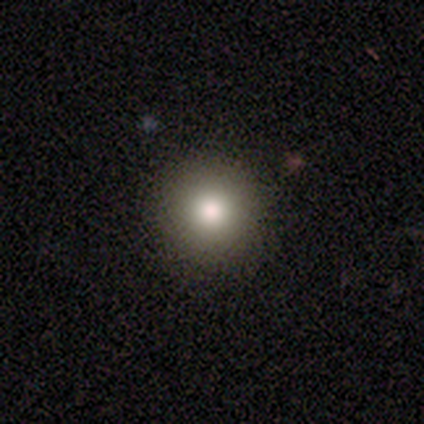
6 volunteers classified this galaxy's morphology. Smooth or featured: smooth — 83% (featured or disk — 17%)
How rounded: round — 100%
Merging: none — 100%